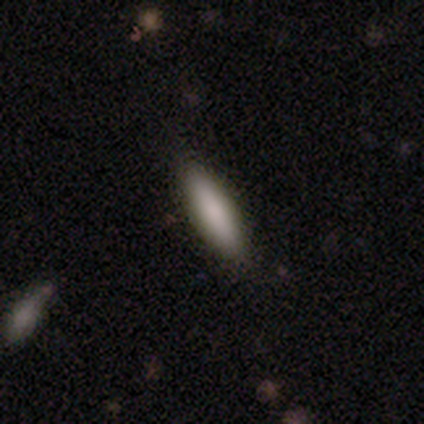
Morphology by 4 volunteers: Smooth or featured? 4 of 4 (100%) said smooth. How rounded? 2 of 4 (50%, tied with cigar-shaped) said in between. Merging? 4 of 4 (100%) said none.